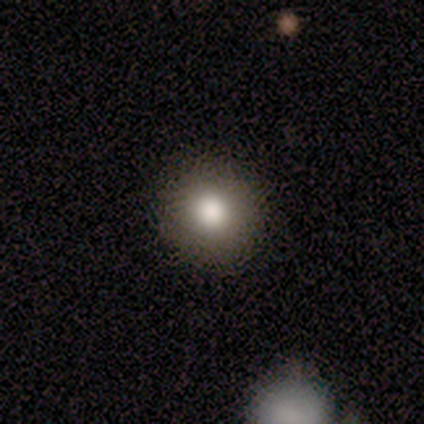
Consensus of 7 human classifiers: Consensus on every question: smooth or featured — smooth (100%); how rounded — round (100%); merging — none (100%).